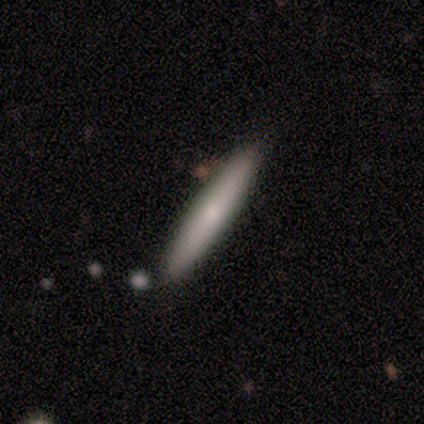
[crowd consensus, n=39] smooth_or_featured: smooth (p=0.69) [alt: featured or disk p=0.31]
how_rounded: cigar-shaped (p=0.96) [alt: in between p=0.04]
merging: none (p=0.85) [alt: minor disturbance p=0.13]